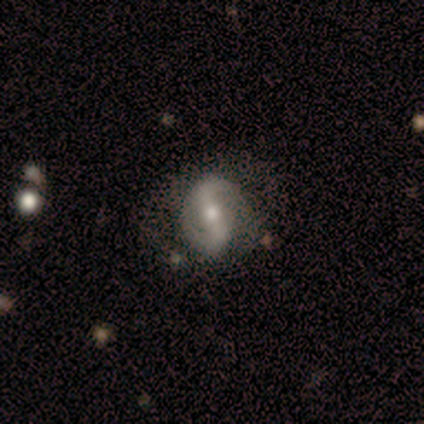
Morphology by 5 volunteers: Smooth or featured? featured or disk (100%)
Edge-on disk? no (100%)
Bar? strong (40%, tied with weak)
Spiral arms? yes (60%)
Spiral winding? medium (67%)
Spiral arm count? 2 (100%)
Bulge size? moderate (60%)
Merging? none (40%, tied with major disturbance)